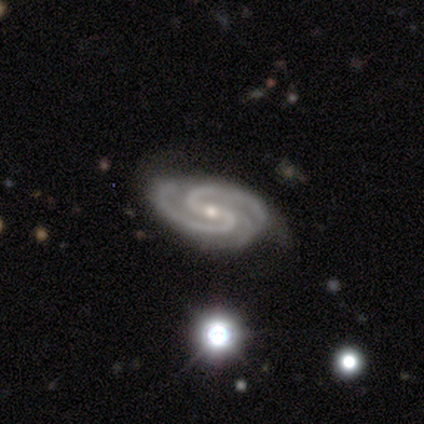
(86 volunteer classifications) featured or disk 94%, star or artifact 5%, smooth 1%. Down the decision tree: edge-on disk — no (98%); bar — weak (52%); spiral arms — yes (100%); spiral arm count — 2 (71%); spiral winding — tight (49%); bulge size — small (65%); merging — none (67%).